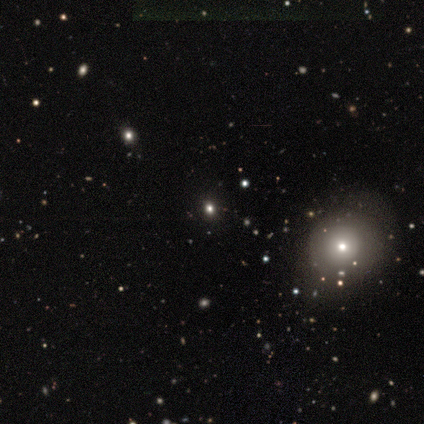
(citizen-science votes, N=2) This is possibly a smooth galaxy (50%, tied with star or artifact). How rounded: clearly round (100%). Merging: clearly minor disturbance (100%).